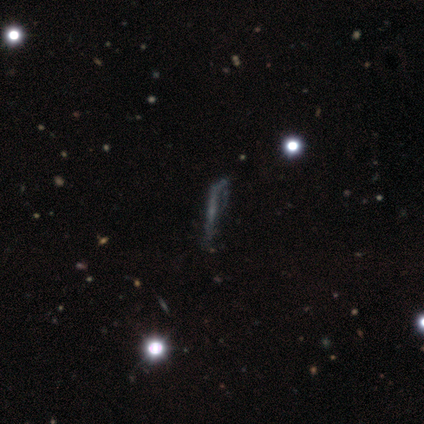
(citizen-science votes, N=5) A featured or disk galaxy (80%) with no bar (100%), no spiral arms (67%) and a small central bulge (67%). Merging: major disturbance (60%).